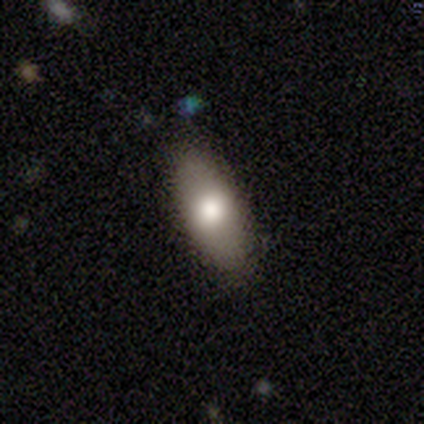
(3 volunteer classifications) Smooth or featured? 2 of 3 (67%) said smooth. How rounded? 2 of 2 (100%) said in between. Merging? 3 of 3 (100%) said none.